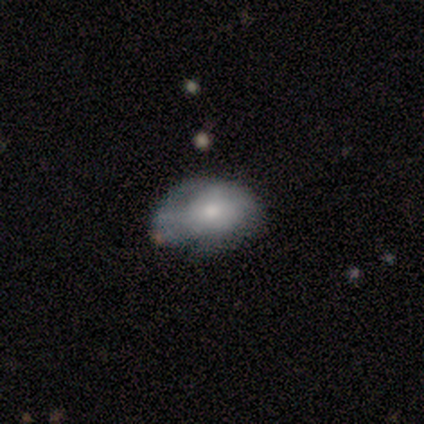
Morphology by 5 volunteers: smooth 80%, featured or disk 20%, star or artifact 0%. Down the decision tree: how rounded — in between (100%); merging — minor disturbance (80%).